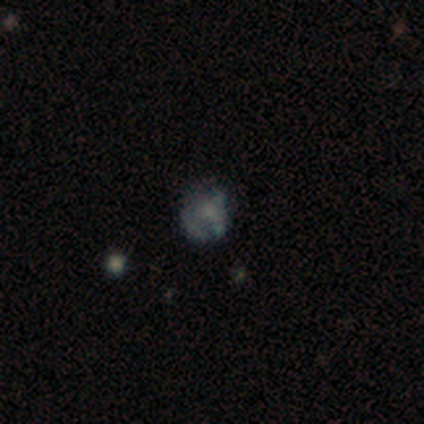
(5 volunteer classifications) Q: Smooth or featured?
A: featured or disk (80%); runner-up: star or artifact (20%)
Q: Edge-on disk?
A: no (100%)
Q: Bar?
A: no (75%); runner-up: weak (25%)
Q: Spiral arms?
A: no (100%)
Q: Bulge size?
A: large (50%); tied with: small (50%)
Q: Merging?
A: minor disturbance (50%); runner-up: none (25%)